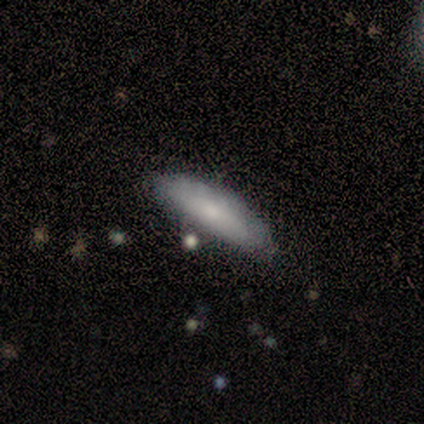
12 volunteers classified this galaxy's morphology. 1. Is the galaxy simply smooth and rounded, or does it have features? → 42% smooth (tied), 42% star or artifact (tied), 17% featured or disk.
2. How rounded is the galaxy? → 60% cigar-shaped, 40% in between, 0% round.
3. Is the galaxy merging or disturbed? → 71% none, 14% minor disturbance, 14% merger, 0% major disturbance.